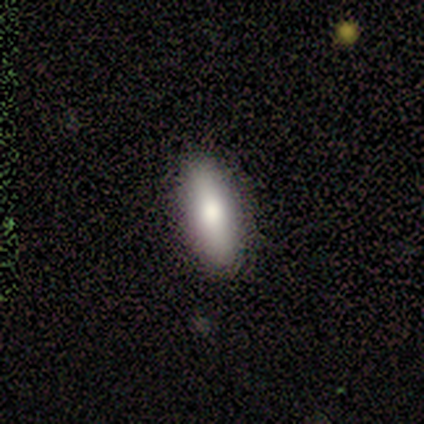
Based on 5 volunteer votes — Volunteers were most divided on "smooth or featured": smooth: 60%, star or artifact: 40%, featured or disk: 0%. More confident: merging — none (100%); how rounded — in between (67%).